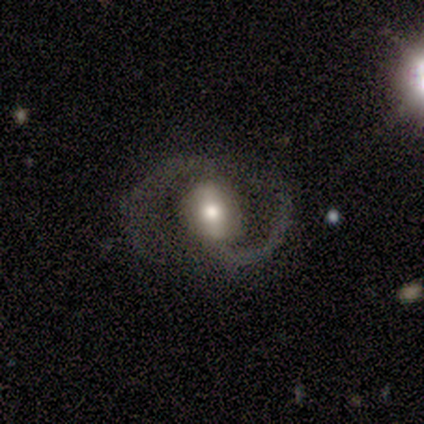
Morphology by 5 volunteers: Smooth or featured? featured or disk (100%)
Edge-on disk? no (100%)
Bar? strong (60%)
Spiral arms? yes (100%)
Spiral winding? medium (60%)
Spiral arm count? 2 (100%)
Bulge size? moderate (80%)
Merging? none (80%)